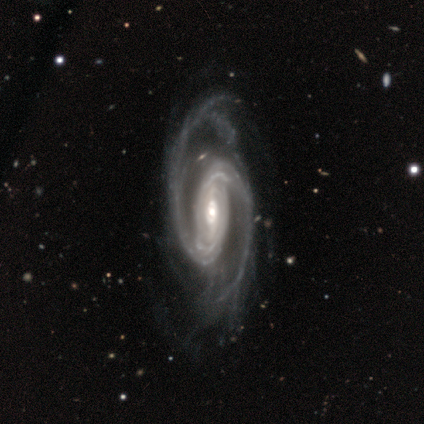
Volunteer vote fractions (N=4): Overall: featured or disk (100%). Edge-on disk: no (75%). Bar: strong (67%; weak 33%). Spiral arms: yes (100%). Spiral arm count: 2 (100%). Spiral winding: medium (67%; tight 33%). Bulge size: moderate (67%; small 33%). Merging: major disturbance (50%; none 25%).